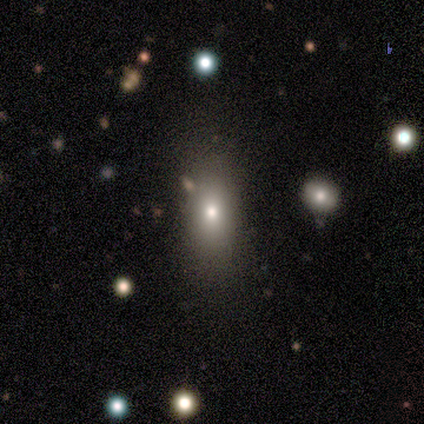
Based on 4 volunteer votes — Volunteers were most divided on "smooth or featured" (2-way tie): smooth: 50%, star or artifact: 50%, featured or disk: 0%; "merging" (2-way tie): none: 50%, minor disturbance: 50%, major disturbance: 0%, merger: 0%. More confident: how rounded — in between (100%).